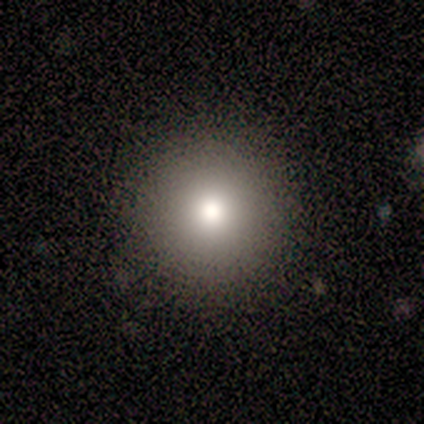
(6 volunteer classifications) Smooth or featured?
  - smooth: 100% *
  - featured or disk: 0%
  - star or artifact: 0%
How rounded?
  - round: 100% *
  - in between: 0%
  - cigar-shaped: 0%
Merging?
  - none: 100% *
  - minor disturbance: 0%
  - major disturbance: 0%
  - merger: 0%